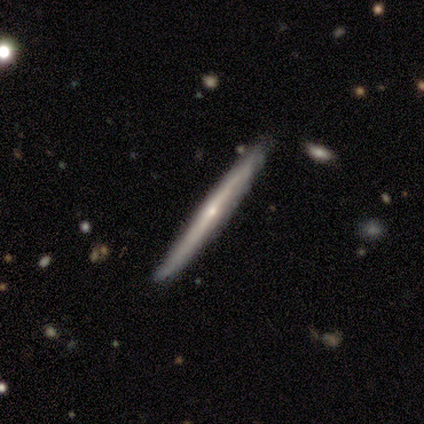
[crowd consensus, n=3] This is likely a featured or disk galaxy (67%). It is clearly viewed edge-on (100%). Edge-on bulge: possibly none (50%, tied with rounded). Merging: clearly none (100%).